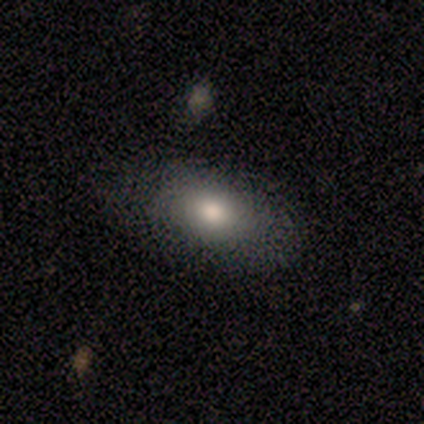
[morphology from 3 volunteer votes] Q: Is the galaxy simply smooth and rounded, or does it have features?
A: smooth — 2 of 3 (67%).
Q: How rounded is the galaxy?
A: in between — 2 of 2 (100%).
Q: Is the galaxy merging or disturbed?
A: none — 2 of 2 (100%).